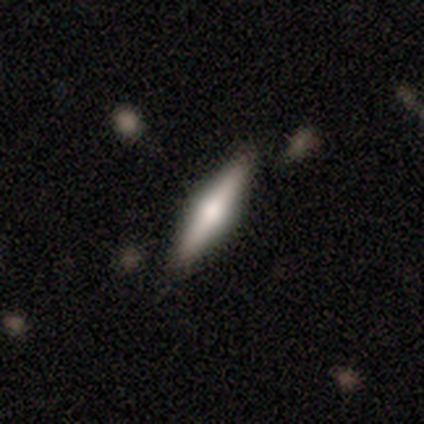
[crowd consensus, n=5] A featured or disk galaxy (60%) viewed edge-on (100%) with a rounded central bulge (67%). Merging: none (100%).